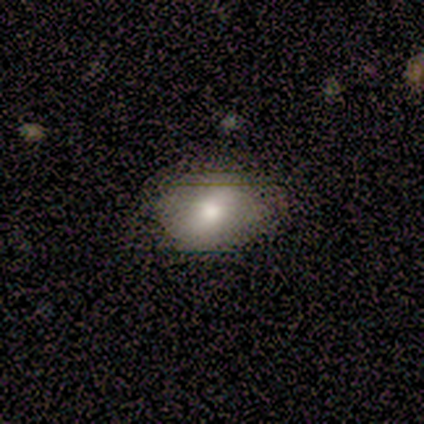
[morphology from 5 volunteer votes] Smooth or featured? 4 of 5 (80%) said smooth. How rounded? 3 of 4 (75%) said in between. Merging? 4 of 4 (100%) said none.